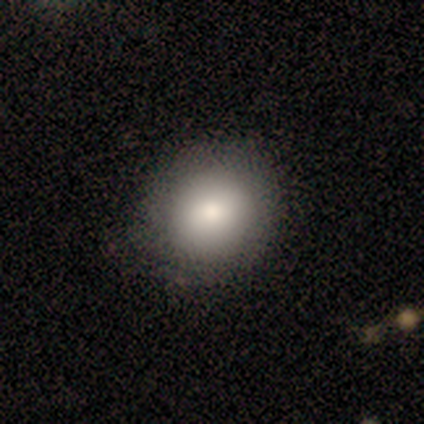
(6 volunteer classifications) This appears to be a smooth galaxy with no disk features (83%) that is round (80%). Merging: none (83%).